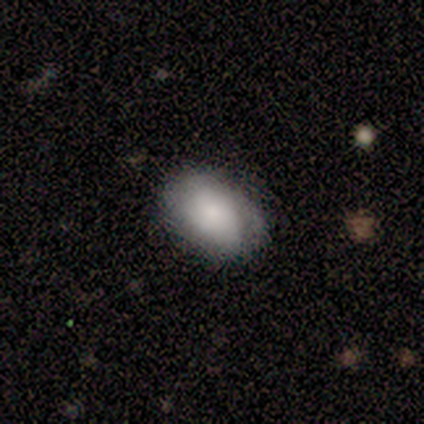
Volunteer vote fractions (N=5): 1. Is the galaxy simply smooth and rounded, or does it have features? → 100% smooth, 0% featured or disk, 0% star or artifact.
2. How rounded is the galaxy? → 100% in between, 0% round, 0% cigar-shaped.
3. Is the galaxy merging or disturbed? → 60% none, 40% minor disturbance, 0% major disturbance, 0% merger.